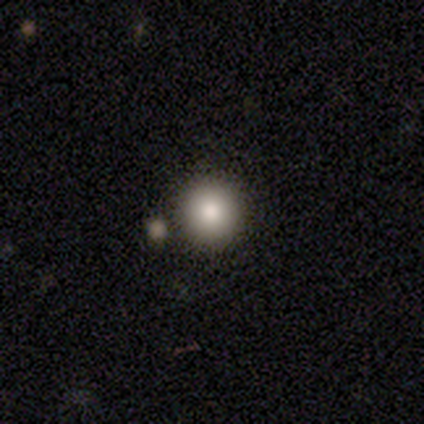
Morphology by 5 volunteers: Smooth or featured? 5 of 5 (100%) said smooth. How rounded? 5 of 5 (100%) said round. Merging? 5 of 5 (100%) said none.